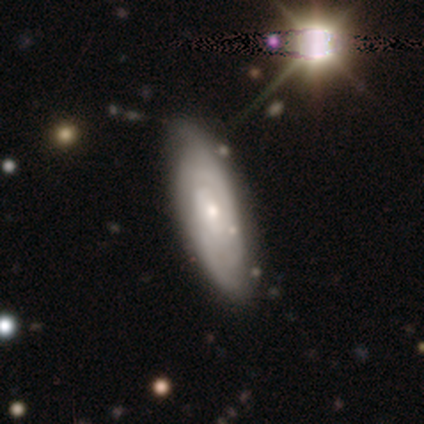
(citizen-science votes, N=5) featured or disk 60%, smooth 40%, star or artifact 0%. Down the decision tree: edge-on disk — no (100%); bar — no (67%); spiral arms — yes (67%); spiral arm count — 3 (50%, tied with can't tell); spiral winding — tight (100%); bulge size — small (100%); merging — none (80%).